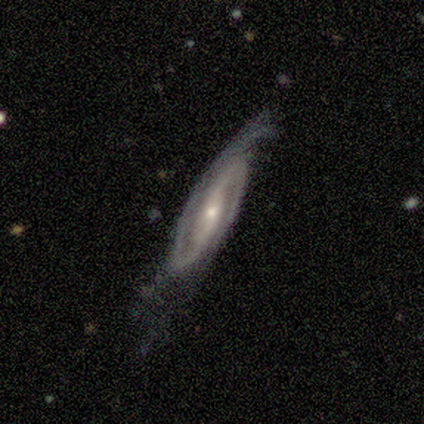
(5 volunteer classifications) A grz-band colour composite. It shows a featured or disk galaxy (100%) with a strong bar (75%), 2 (75%) medium (50%) spiral arms (100%) and a small central bulge (75%). Merging: minor disturbance (80%).